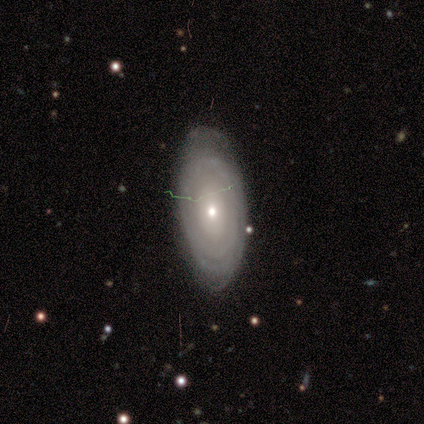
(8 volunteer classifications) A featured or disk galaxy (75%) with no bar (83%), tight (100%) spiral arms (50%, tied with no) and a small central bulge (83%).

Vote fractions:
- Smooth or featured? featured or disk: 75% / smooth: 25% / star or artifact: 0%
- Edge-on disk? no: 100% / yes: 0%
- Bar? no: 83% / weak: 17% / strong: 0%
- Spiral arms? yes: 50% (tied) / no: 50% (tied)
- Spiral winding? tight: 100% / medium: 0% / loose: 0%
- Spiral arm count? can't tell: 67% / more than 4: 33% / 1: 0% / 2: 0% / 3: 0% / 4: 0%
- Bulge size? small: 83% / moderate: 17% / dominant: 0% / large: 0% / none: 0%
- Merging? none: 88% / minor disturbance: 12% / major disturbance: 0% / merger: 0%